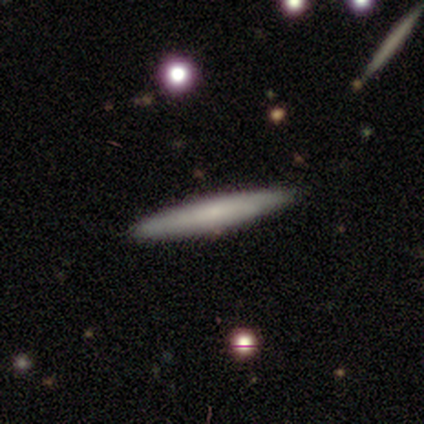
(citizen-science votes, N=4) A smooth galaxy with no disk features (75%) that is cigar-shaped (100%).

Vote fractions:
- Smooth or featured? smooth: 75% / featured or disk: 25% / star or artifact: 0%
- How rounded? cigar-shaped: 100% / round: 0% / in between: 0%
- Merging? none: 100% / minor disturbance: 0% / major disturbance: 0% / merger: 0%